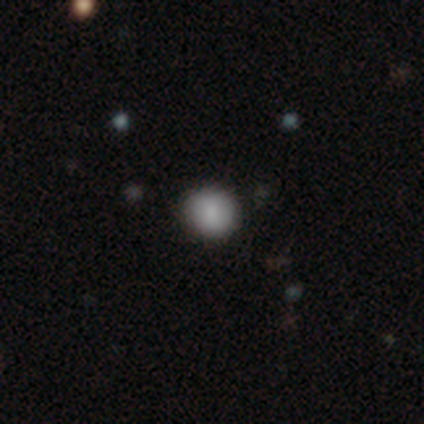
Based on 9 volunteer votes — smooth_or_featured: smooth (p=0.89) [alt: star or artifact p=0.11]
how_rounded: round (p=1.00)
merging: none (p=0.88) [alt: minor disturbance p=0.12]